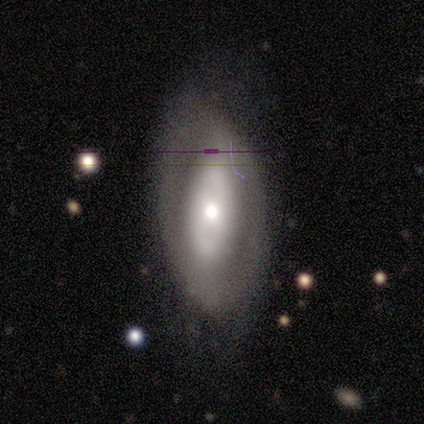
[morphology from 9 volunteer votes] Volunteers were most divided on "merging": minor disturbance: 44%, none: 33%, major disturbance: 22%, merger: 0%. More confident: spiral arms — no (100%); edge-on disk — no (86%); smooth or featured — featured or disk (78%); bar — no (67%); bulge size — moderate (67%).